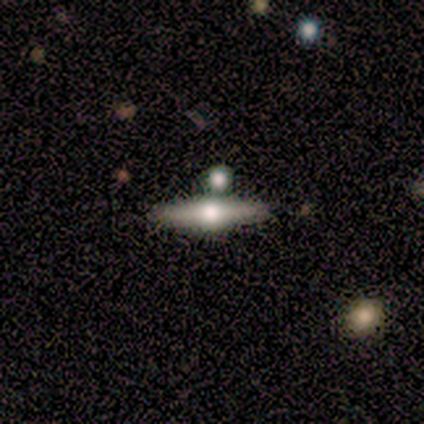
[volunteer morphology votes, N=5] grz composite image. It shows a featured or disk galaxy (100%) viewed edge-on (100%) with a rounded central bulge (80%). Merging: none (80%).